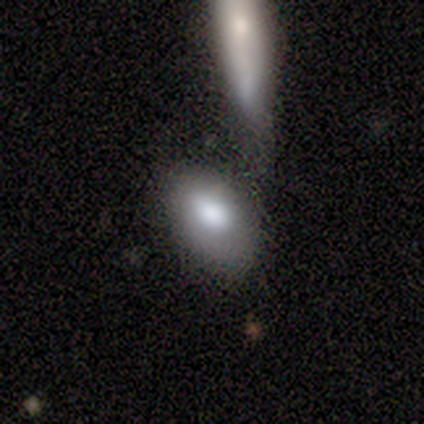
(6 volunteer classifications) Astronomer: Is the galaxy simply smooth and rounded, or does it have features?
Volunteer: smooth — 83%.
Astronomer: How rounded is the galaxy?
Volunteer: in between — 100%.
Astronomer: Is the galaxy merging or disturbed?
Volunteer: none — 33%, tied with minor disturbance and merger at 33%.